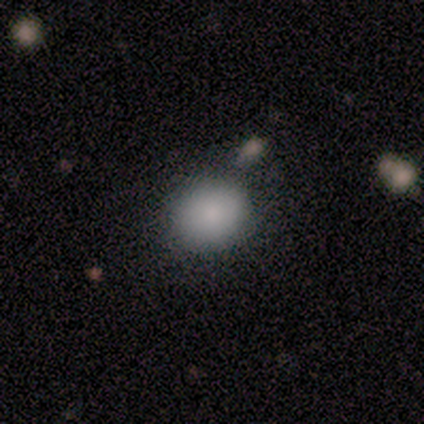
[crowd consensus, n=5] smooth-or-featured: smooth: 100% | featured or disk: 0% | star or artifact: 0%
  how-rounded: round: 60% | in between: 40% | cigar-shaped: 0%
  merging: none: 80% | minor disturbance: 20% | major disturbance: 0% | merger: 0%